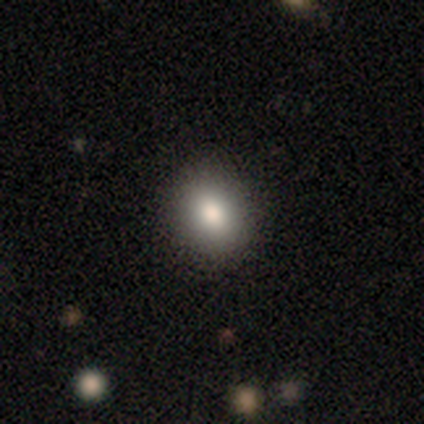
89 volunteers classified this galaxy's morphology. This is clearly a smooth galaxy (90%). How rounded: likely round (64%). Merging: clearly none (89%).